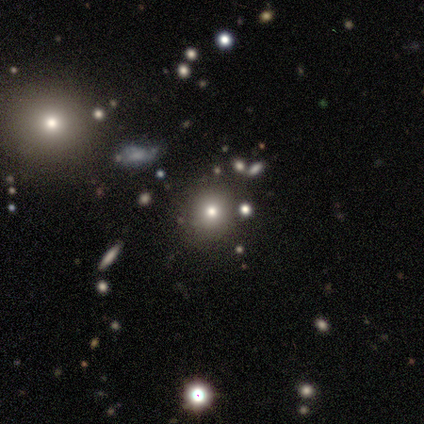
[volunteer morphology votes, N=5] Volunteers were most divided on "merging": none: 60%, minor disturbance: 40%, major disturbance: 0%, merger: 0%. More confident: smooth or featured — smooth (100%); how rounded — round (80%).